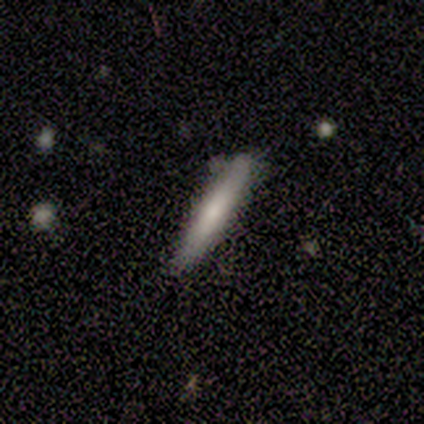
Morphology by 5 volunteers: A smooth galaxy with no disk features (60%) that is cigar-shaped (100%).

Vote fractions:
- Smooth or featured? smooth: 60% / featured or disk: 40% / star or artifact: 0%
- How rounded? cigar-shaped: 100% / round: 0% / in between: 0%
- Merging? none: 60% / minor disturbance: 40% / major disturbance: 0% / merger: 0%